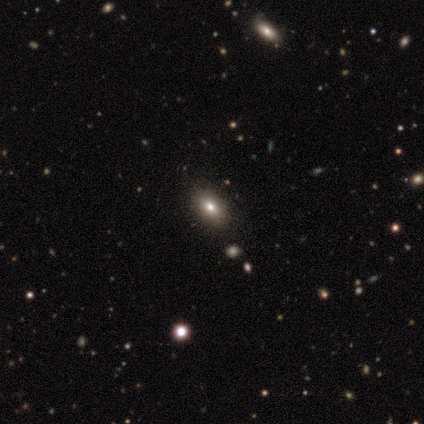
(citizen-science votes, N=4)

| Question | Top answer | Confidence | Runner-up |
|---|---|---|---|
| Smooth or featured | star or artifact | 50% | smooth (25%) |